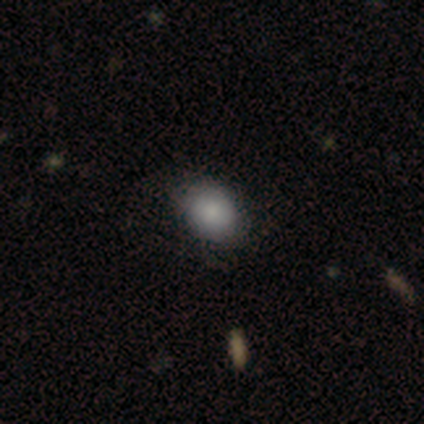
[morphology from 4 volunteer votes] This is clearly a smooth galaxy (100%). How rounded: likely in between (75%). Merging: likely none (75%).